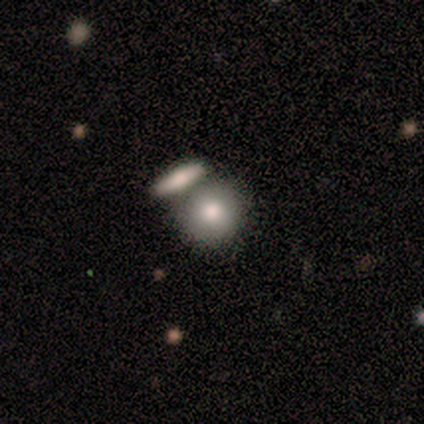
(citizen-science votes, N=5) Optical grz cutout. It shows a smooth galaxy with no disk features (60%) that is round (67%). Merging: merger (75%).